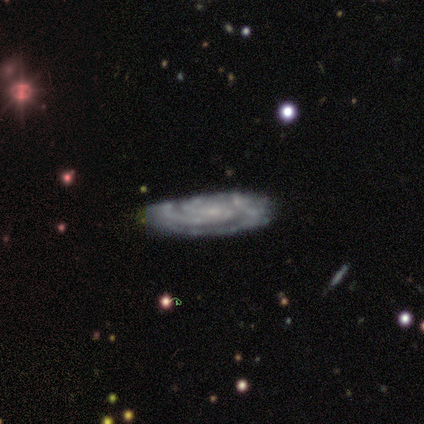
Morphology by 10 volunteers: Smooth or featured? 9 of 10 (90%) said featured or disk. Edge-on disk? 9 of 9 (100%) said no. Bar? 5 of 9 (56%) said no. Spiral arms? 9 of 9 (100%) said yes. Spiral winding? 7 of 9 (78%) said tight. Spiral arm count? 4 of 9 (44%) said 3. Bulge size? 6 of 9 (67%) said small. Merging? 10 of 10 (100%) said none.